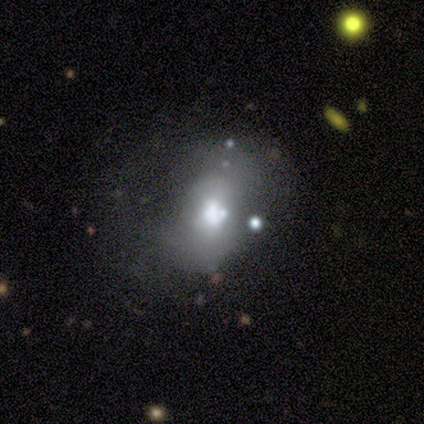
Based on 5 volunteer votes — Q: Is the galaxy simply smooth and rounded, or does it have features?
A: smooth — 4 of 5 (80%).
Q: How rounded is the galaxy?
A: round — 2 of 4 (50%).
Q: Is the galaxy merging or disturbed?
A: minor disturbance — 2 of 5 (40%, tied with major disturbance).